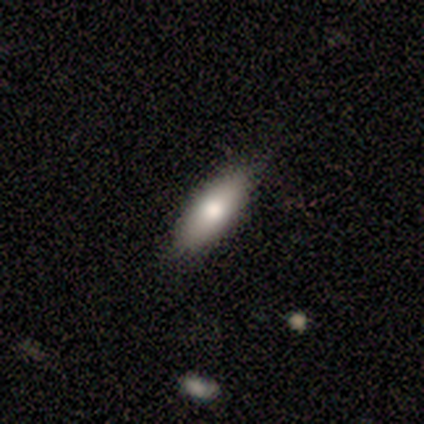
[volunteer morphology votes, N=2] Smooth or featured: smooth — 100%
How rounded: in between — 50% (tied with cigar-shaped — 50%)
Merging: none — 100%